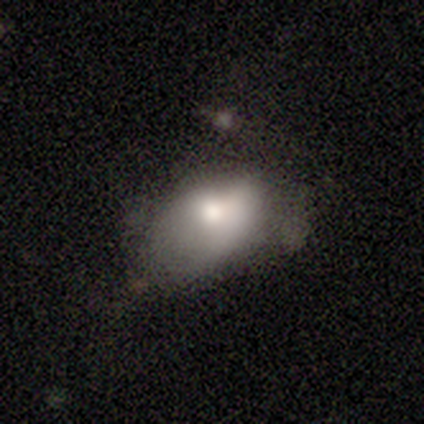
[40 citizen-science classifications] Smooth or featured?
  - smooth: 52% *
  - featured or disk: 45%
  - star or artifact: 2%
How rounded?
  - in between: 71% *
  - round: 19%
  - cigar-shaped: 10%
Merging?
  - minor disturbance: 36% * (tied)
  - major disturbance: 36% * (tied)
  - none: 26%
  - merger: 3%